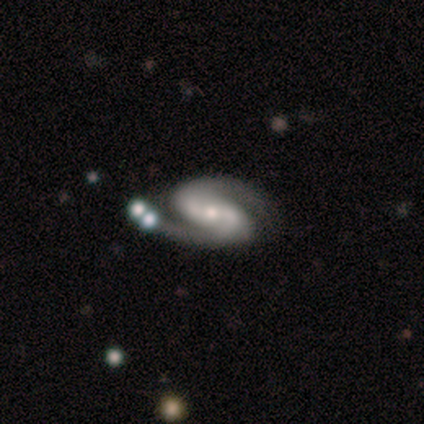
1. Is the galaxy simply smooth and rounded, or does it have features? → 83% featured or disk, 17% smooth, 0% star or artifact.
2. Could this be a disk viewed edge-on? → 100% no, 0% yes.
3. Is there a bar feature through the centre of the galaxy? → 60% weak, 20% strong, 20% no.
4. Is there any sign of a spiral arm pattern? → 100% yes, 0% no.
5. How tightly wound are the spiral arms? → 60% medium, 20% tight, 20% loose.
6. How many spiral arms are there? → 100% 2, 0% 1, 0% 3, 0% 4, 0% more than 4, 0% can't tell.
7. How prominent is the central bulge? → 60% small, 40% moderate, 0% dominant, 0% large, 0% none.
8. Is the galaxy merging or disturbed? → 50% minor disturbance, 33% none, 17% major disturbance, 0% merger.